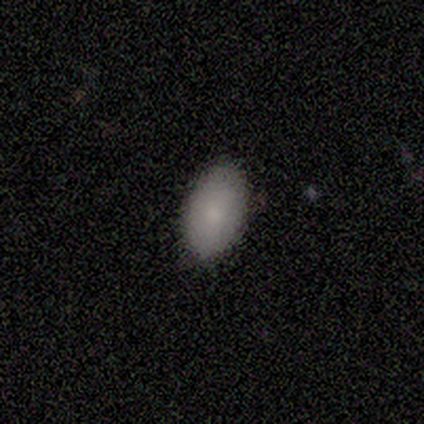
Q: Smooth or featured?
A: smooth (100%)
Q: How rounded?
A: in between (100%)
Q: Merging?
A: none (75%); runner-up: minor disturbance (25%)